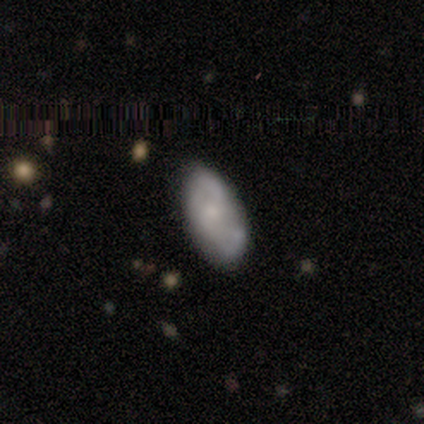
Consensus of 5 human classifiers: Smooth or featured: featured or disk — 60% (smooth — 40%)
Edge-on disk: no — 100%
Bar: no — 67% (weak — 33%)
Spiral arms: yes — 100%
Spiral winding: medium — 67% (loose — 33%)
Spiral arm count: 2 — 100%
Bulge size: moderate — 33% (tied with small — 33%; none — 33%)
Merging: none — 80% (major disturbance — 20%)